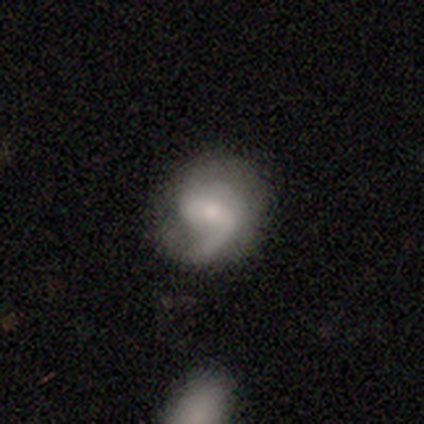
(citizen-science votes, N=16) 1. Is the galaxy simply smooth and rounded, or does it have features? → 69% featured or disk, 25% smooth, 6% star or artifact.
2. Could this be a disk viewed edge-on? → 100% no, 0% yes.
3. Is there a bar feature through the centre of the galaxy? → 55% weak, 36% no, 9% strong.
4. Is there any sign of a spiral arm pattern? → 100% yes, 0% no.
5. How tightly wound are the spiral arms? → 55% loose, 27% medium, 18% tight.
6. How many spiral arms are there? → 55% 2, 36% 1, 9% can't tell, 0% 3, 0% 4, 0% more than 4.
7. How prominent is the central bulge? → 55% small, 36% moderate, 9% large, 0% dominant, 0% none.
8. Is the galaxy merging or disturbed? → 53% none, 27% major disturbance, 20% minor disturbance, 0% merger.